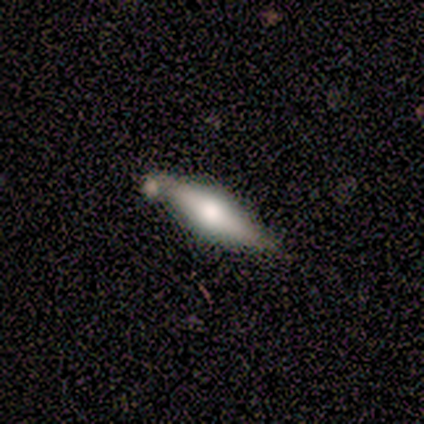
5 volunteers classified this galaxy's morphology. A featured or disk galaxy (60%) viewed edge-on (100%) with a rounded central bulge (67%). Merging: none (80%).